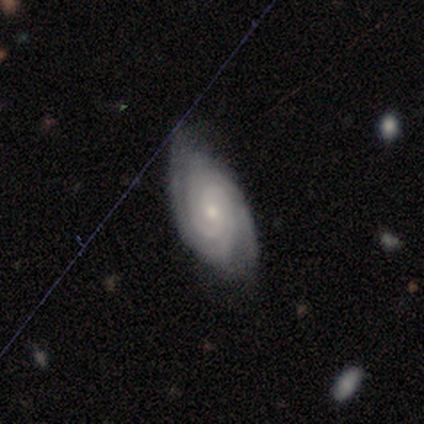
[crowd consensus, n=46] smooth-or-featured: featured or disk: 83% | smooth: 9% | star or artifact: 9%
  disk-edge-on: no: 100% | yes: 0%
    bar: no: 82% | weak: 18% | strong: 0%
    has-spiral-arms: yes: 100% | no: 0%
      spiral-winding: tight: 79% | medium: 18% | loose: 3%
      spiral-arm-count: 2: 58% | can't tell: 24% | 3: 18% | 1: 0% | 4: 0% | more than 4: 0%
    bulge-size: small: 61% | moderate: 37% | none: 3% | dominant: 0% | large: 0%
  merging: none: 67% | minor disturbance: 21% | major disturbance: 10% | merger: 2%